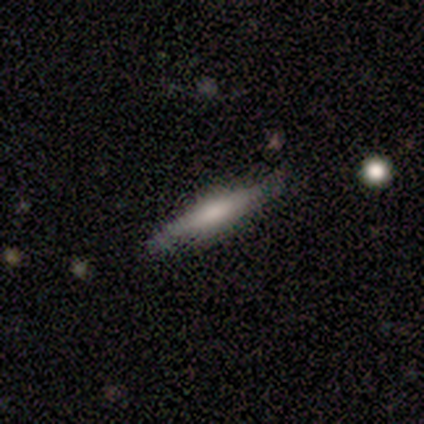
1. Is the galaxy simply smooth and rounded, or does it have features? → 60% featured or disk, 40% smooth, 0% star or artifact.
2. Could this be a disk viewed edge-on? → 100% yes, 0% no.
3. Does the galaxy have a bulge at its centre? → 67% rounded, 33% none, 0% boxy.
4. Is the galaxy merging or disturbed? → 80% none, 20% merger, 0% minor disturbance, 0% major disturbance.